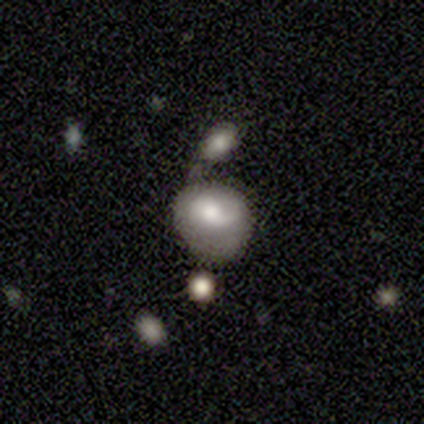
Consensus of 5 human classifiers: Smooth or featured: featured or disk — 80% (smooth — 20%)
Edge-on disk: no — 75% (yes — 25%)
Bar: no — 67% (weak — 33%)
Spiral arms: yes — 67% (no — 33%)
Spiral winding: medium — 50% (tied with loose — 50%)
Spiral arm count: 2 — 100%
Bulge size: moderate — 67% (none — 33%)
Merging: minor disturbance — 80% (none — 20%)